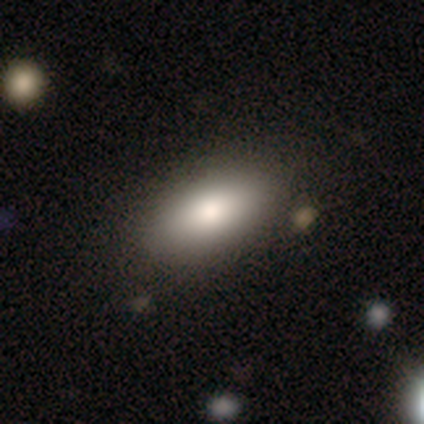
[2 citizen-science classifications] This is clearly a smooth galaxy (100%). How rounded: possibly in between (50%, tied with cigar-shaped). Merging: possibly none (50%, tied with minor disturbance).